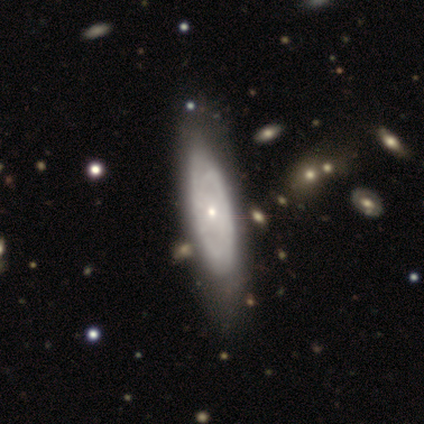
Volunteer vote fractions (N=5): Smooth or featured? 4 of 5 (80%) said featured or disk. Edge-on disk? 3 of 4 (75%) said no. Bar? 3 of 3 (100%) said weak. Spiral arms? 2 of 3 (67%) said yes. Spiral winding? 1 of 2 (50%, tied with medium) said tight. Spiral arm count? 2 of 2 (100%) said 2. Bulge size? 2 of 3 (67%) said small. Merging? 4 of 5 (80%) said none.